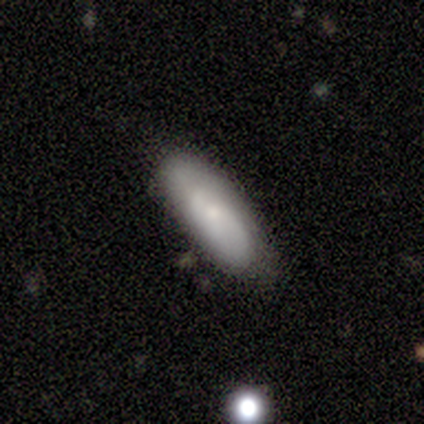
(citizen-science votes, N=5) Smooth or featured? featured or disk (60%)
Edge-on disk? no (67%)
Bar? no (100%)
Spiral arms? no (100%)
Bulge size? small (100%)
Merging? none (60%)